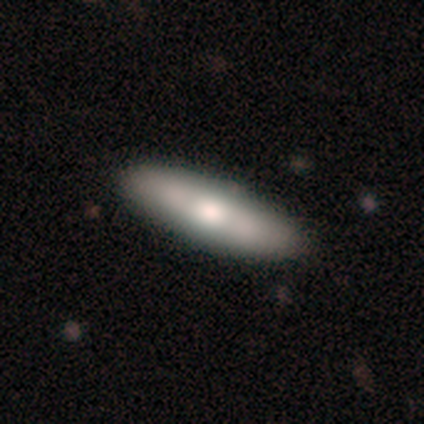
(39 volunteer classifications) This is possibly a smooth galaxy (56%). How rounded: possibly cigar-shaped (55%). Merging: likely none (69%).